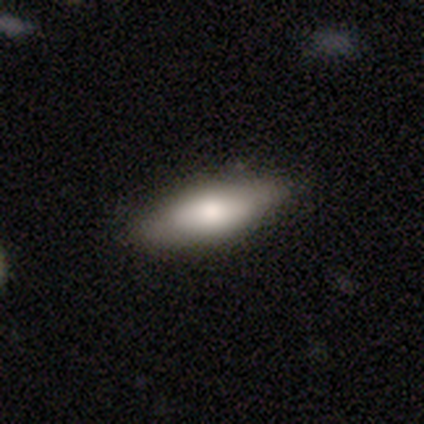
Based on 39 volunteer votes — Smooth or featured? smooth (77%)
How rounded? in between (60%)
Merging? none (62%)